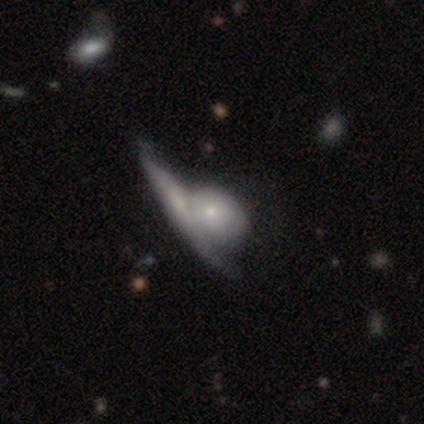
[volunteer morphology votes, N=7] This is clearly a featured or disk galaxy (86%). It is clearly not viewed edge-on (83%). Bar: clearly no (100%). Spiral arm pattern: clearly no (100%). Central bulge: clearly small (80%). Merging: clearly merger (100%).